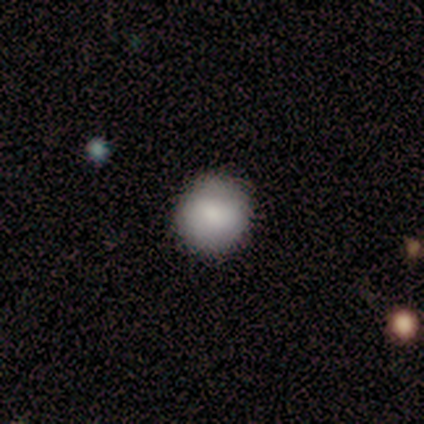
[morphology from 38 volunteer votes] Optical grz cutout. It shows a smooth galaxy with no disk features (89%) that is round (97%). Merging: none (89%).